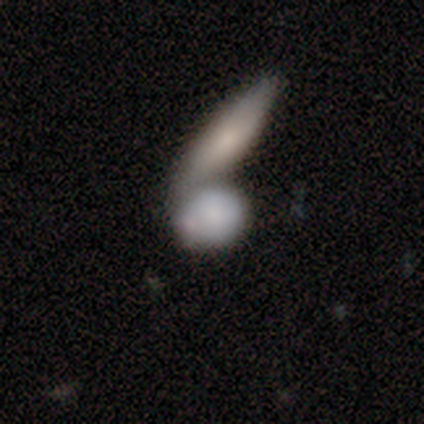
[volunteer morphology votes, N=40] A smooth galaxy with no disk features (72%) that is round (62%).

Vote fractions:
- Smooth or featured? smooth: 72% / featured or disk: 20% / star or artifact: 8%
- How rounded? round: 62% / in between: 31% / cigar-shaped: 7%
- Merging? merger: 73% / none: 19% / major disturbance: 8% / minor disturbance: 0%